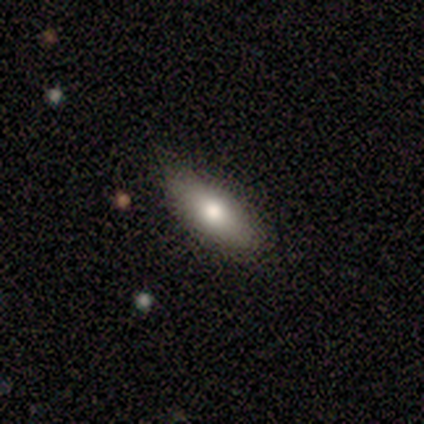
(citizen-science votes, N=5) Smooth or featured? 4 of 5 (80%) said smooth. How rounded? 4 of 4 (100%) said in between. Merging? 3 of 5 (60%) said none.